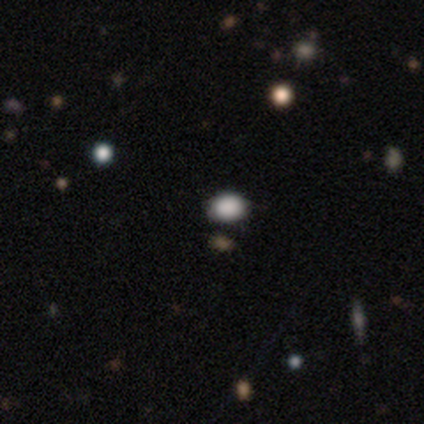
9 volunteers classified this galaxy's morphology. Q: Smooth or featured?
A: smooth (89%); runner-up: star or artifact (11%)
Q: How rounded?
A: in between (75%); runner-up: round (25%)
Q: Merging?
A: none (100%)